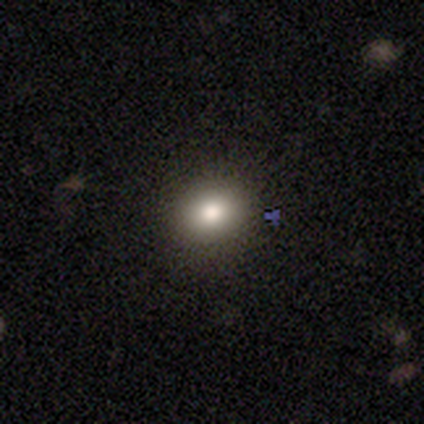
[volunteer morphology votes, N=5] smooth 60%, featured or disk 20%, star or artifact 20%. Down the decision tree: how rounded — in between (67%); merging — none (75%).